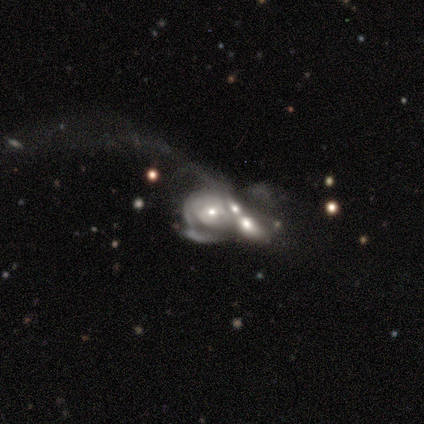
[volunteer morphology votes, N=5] A featured or disk galaxy (100%) with no bar (75%), medium (67%) spiral arms (75%) and a moderate central bulge (50%). Merging: merger (100%).